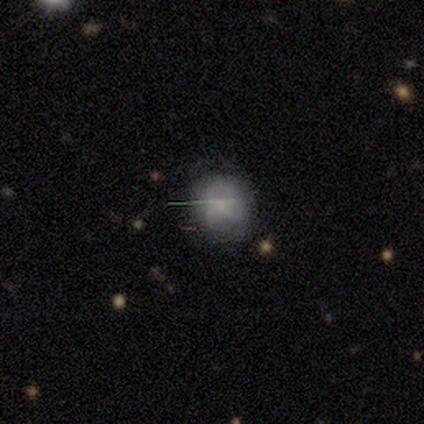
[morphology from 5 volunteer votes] Overall: smooth (40%, tied with featured or disk). How rounded: round (50%, tied with in between). Merging: none (50%; minor disturbance 25%).